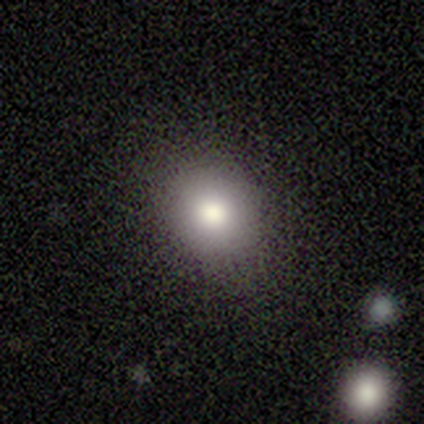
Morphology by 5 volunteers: Overall: smooth (80%). How rounded: round (100%). Merging: none (80%).